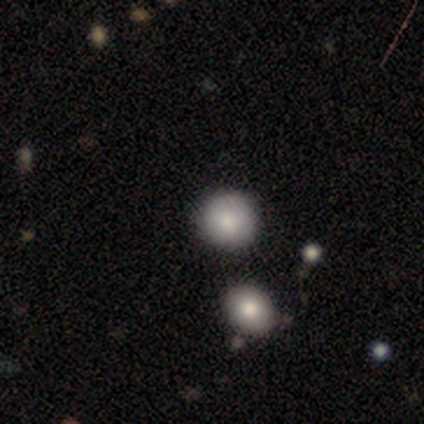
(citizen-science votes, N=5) A smooth galaxy with no disk features (100%) that is round (80%).

Vote fractions:
- Smooth or featured? smooth: 100% / featured or disk: 0% / star or artifact: 0%
- How rounded? round: 80% / in between: 20% / cigar-shaped: 0%
- Merging? none: 80% / merger: 20% / minor disturbance: 0% / major disturbance: 0%